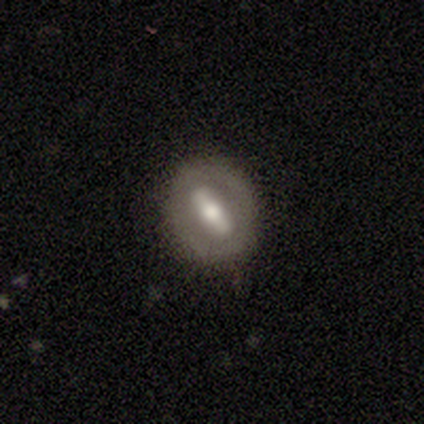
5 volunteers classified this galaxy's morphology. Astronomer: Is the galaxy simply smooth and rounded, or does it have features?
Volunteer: smooth — 100%.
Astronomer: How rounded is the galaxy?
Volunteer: in between — 40%, tied with cigar-shaped at 40%.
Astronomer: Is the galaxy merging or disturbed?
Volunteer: none — 100%.